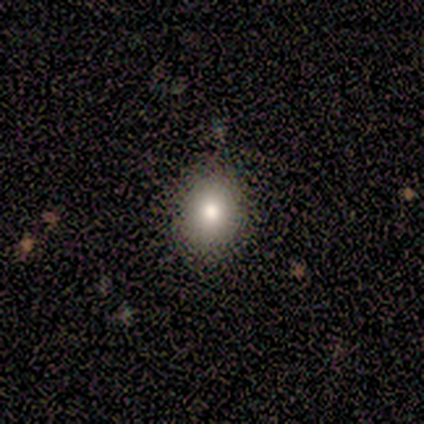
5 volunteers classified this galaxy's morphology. Smooth or featured?
  - smooth: 100% *
  - featured or disk: 0%
  - star or artifact: 0%
How rounded?
  - in between: 60% *
  - round: 40%
  - cigar-shaped: 0%
Merging?
  - none: 80% *
  - minor disturbance: 20%
  - major disturbance: 0%
  - merger: 0%